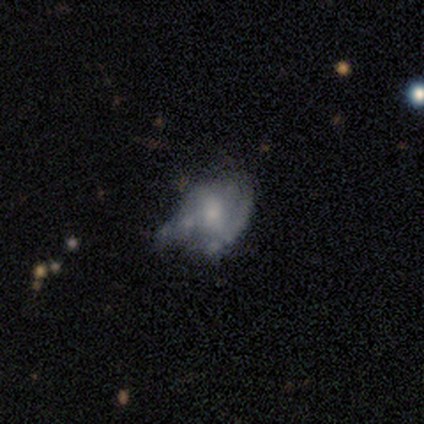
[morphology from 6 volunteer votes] A featured or disk galaxy (67%) with no bar (100%), no spiral arms (75%) and a small central bulge (75%).

Vote fractions:
- Smooth or featured? featured or disk: 67% / smooth: 33% / star or artifact: 0%
- Edge-on disk? no: 100% / yes: 0%
- Bar? no: 100% / strong: 0% / weak: 0%
- Spiral arms? no: 75% / yes: 25%
- Bulge size? small: 75% / none: 25% / dominant: 0% / large: 0% / moderate: 0%
- Merging? minor disturbance: 50% / none: 33% / major disturbance: 17% / merger: 0%